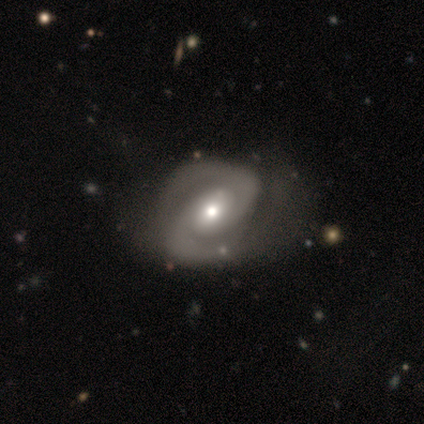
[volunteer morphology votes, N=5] smooth_or_featured: featured or disk (p=1.00)
disk_edge_on: no (p=1.00)
bar: weak (p=0.60) [alt: no p=0.40]
has_spiral_arms: yes (p=1.00)
spiral_winding: tight (p=0.80) [alt: loose p=0.20]
spiral_arm_count: 2 (p=1.00)
bulge_size: moderate (p=1.00)
merging: minor disturbance (p=0.40) [tied with: major disturbance p=0.40]